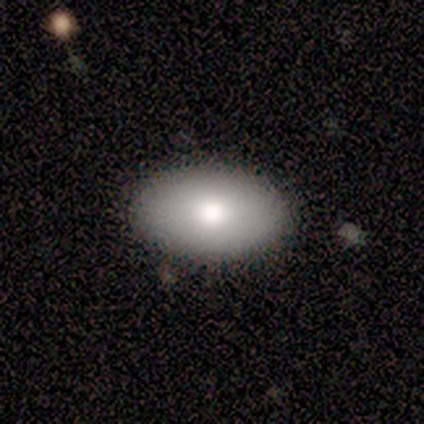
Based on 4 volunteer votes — This is clearly a smooth galaxy (100%). How rounded: possibly round (50%, tied with in between). Merging: clearly none (100%).